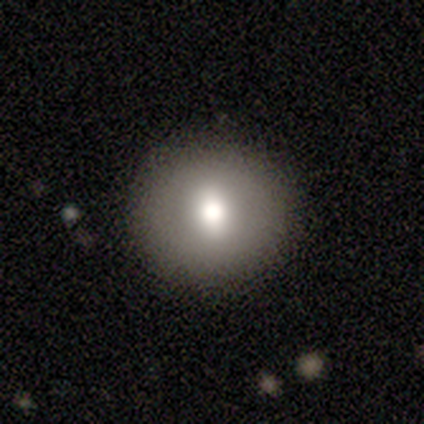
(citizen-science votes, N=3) Overall: smooth (67%; featured or disk 33%). How rounded: round (100%). Merging: none (100%).